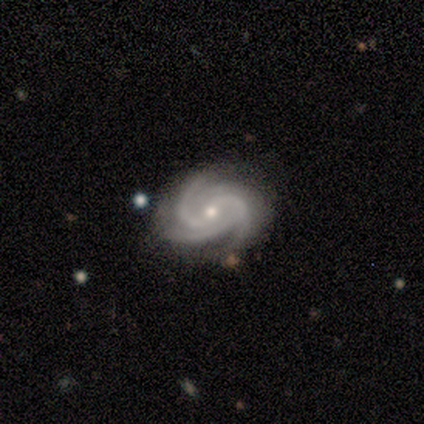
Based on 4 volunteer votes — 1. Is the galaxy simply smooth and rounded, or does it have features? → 100% featured or disk, 0% smooth, 0% star or artifact.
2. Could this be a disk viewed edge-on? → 100% no, 0% yes.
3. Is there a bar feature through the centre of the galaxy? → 75% no, 25% weak, 0% strong.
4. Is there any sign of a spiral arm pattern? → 100% yes, 0% no.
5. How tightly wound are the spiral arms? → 50% tight (tied), 50% medium (tied), 0% loose.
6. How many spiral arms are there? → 50% 3 (tied), 50% 4 (tied), 0% 1, 0% 2, 0% more than 4, 0% can't tell.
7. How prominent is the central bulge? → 75% small, 25% moderate, 0% dominant, 0% large, 0% none.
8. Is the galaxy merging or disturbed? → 100% none, 0% minor disturbance, 0% major disturbance, 0% merger.